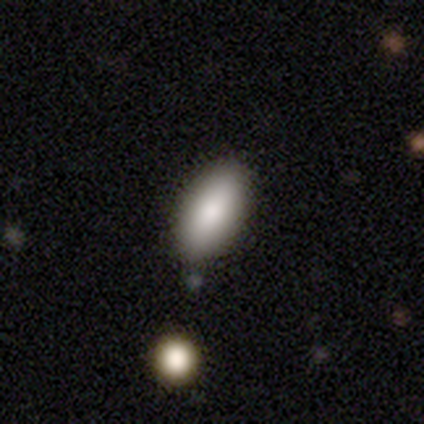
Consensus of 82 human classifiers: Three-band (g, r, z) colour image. It shows a smooth galaxy with no disk features (87%) that is in between round and cigar-shaped (90%). Merging: none (82%).